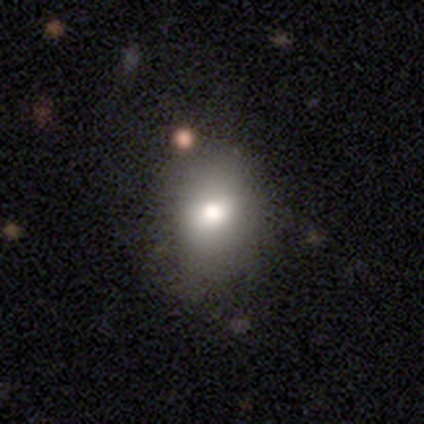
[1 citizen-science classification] Smooth or featured?
  - featured or disk: 100% *
  - smooth: 0%
  - star or artifact: 0%
Edge-on disk?
  - no: 100% *
  - yes: 0%
Bar?
  - no: 100% *
  - strong: 0%
  - weak: 0%
Spiral arms?
  - no: 100% *
  - yes: 0%
Bulge size?
  - moderate: 100% *
  - dominant: 0%
  - large: 0%
  - small: 0%
  - none: 0%
Merging?
  - major disturbance: 100% *
  - none: 0%
  - minor disturbance: 0%
  - merger: 0%